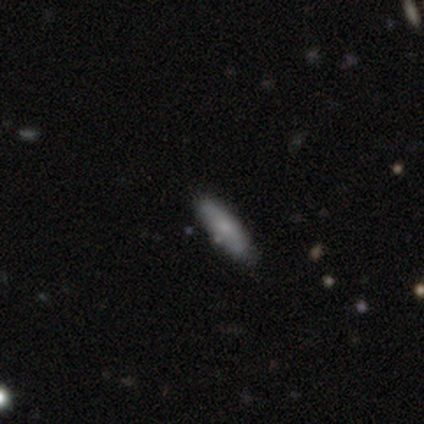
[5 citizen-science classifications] Q: Smooth or featured?
A: smooth (60%); runner-up: featured or disk (40%)
Q: How rounded?
A: in between (67%); runner-up: cigar-shaped (33%)
Q: Merging?
A: none (100%)